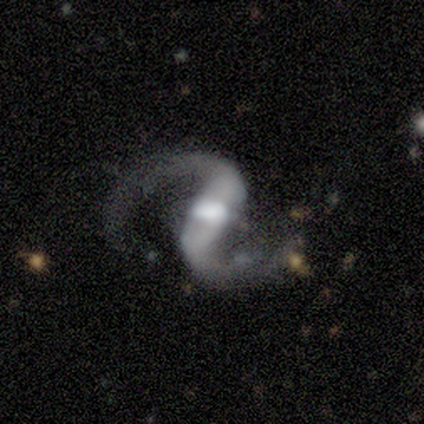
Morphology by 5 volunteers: type=featured or disk (80%); edge-on=no (100%); bar=strong (75%); spiral arms=yes (100%); winding=medium (50%, tied with loose); arm count=2 (100%); bulge=large (50%, tied with moderate); merging=none (100%).